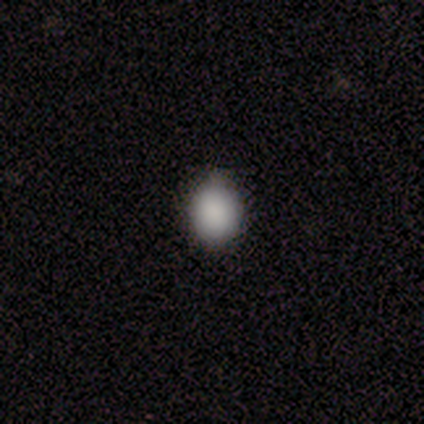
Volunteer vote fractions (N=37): Smooth or featured: smooth — 95% (star or artifact — 5%)
How rounded: round — 54% (in between — 46%)
Merging: none — 86% (minor disturbance — 14%)